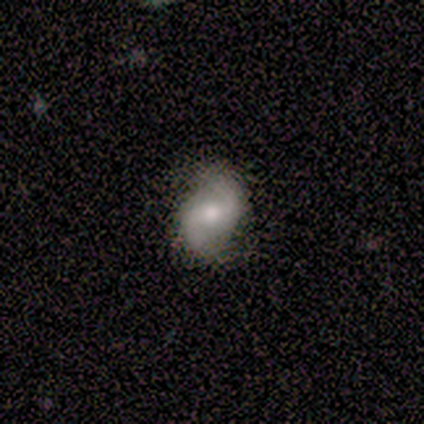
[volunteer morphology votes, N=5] Smooth or featured: featured or disk — 80% (smooth — 20%)
Edge-on disk: no — 100%
Bar: weak — 100%
Spiral arms: yes — 100%
Spiral winding: medium — 50% (tied with loose — 50%)
Spiral arm count: 2 — 100%
Bulge size: large — 50% (moderate — 25%)
Merging: none — 80% (minor disturbance — 20%)